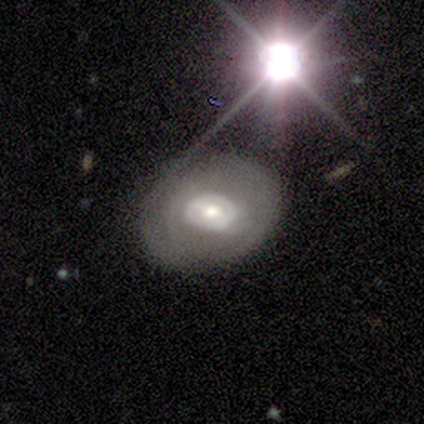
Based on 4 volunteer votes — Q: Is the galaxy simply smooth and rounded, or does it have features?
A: featured or disk — 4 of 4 (100%).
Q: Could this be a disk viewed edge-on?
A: no — 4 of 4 (100%).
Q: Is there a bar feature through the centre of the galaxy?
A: no — 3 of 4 (75%).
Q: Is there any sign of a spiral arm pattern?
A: no — 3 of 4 (75%).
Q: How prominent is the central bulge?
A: moderate — 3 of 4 (75%).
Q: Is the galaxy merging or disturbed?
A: none — 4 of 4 (100%).